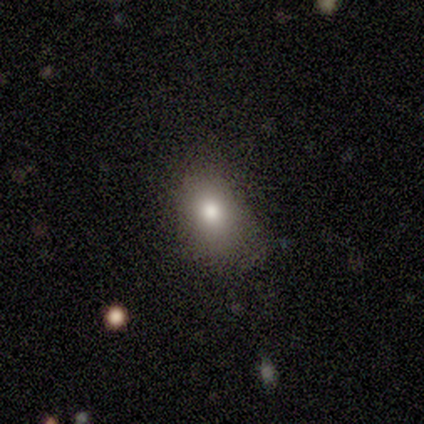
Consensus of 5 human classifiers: smooth 100%, featured or disk 0%, star or artifact 0%. Down the decision tree: how rounded — in between (80%); merging — minor disturbance (60%).